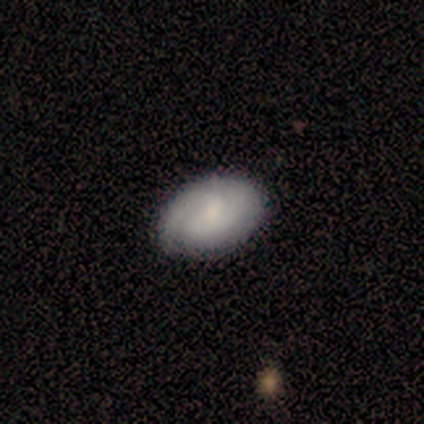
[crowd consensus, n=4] Smooth or featured? 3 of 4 (75%) said smooth. How rounded? 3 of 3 (100%) said in between. Merging? 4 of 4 (100%) said none.